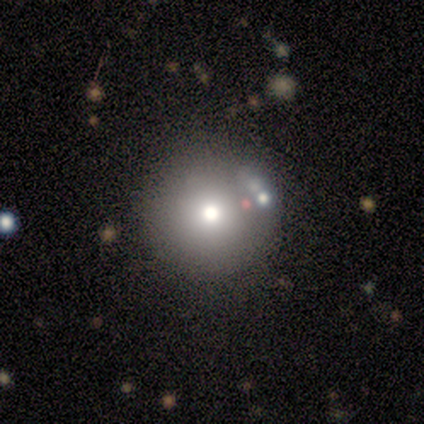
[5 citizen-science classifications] smooth 60%, featured or disk 20%, star or artifact 20%. Down the decision tree: how rounded — round (67%); merging — none (50%, tied with minor disturbance).